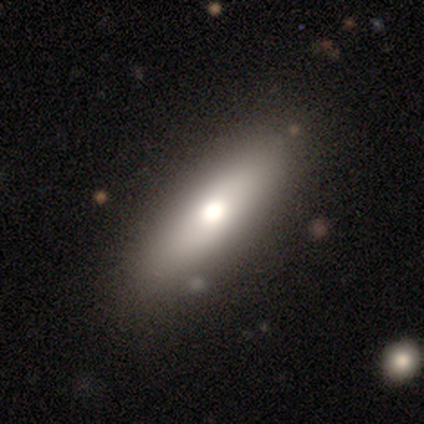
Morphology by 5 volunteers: Overall: featured or disk (60%; smooth 40%). Edge-on disk: no (67%; yes 33%). Bar: strong (50%, tied with no). Spiral arms: no (100%). Bulge size: moderate (50%, tied with none). Merging: none (80%).